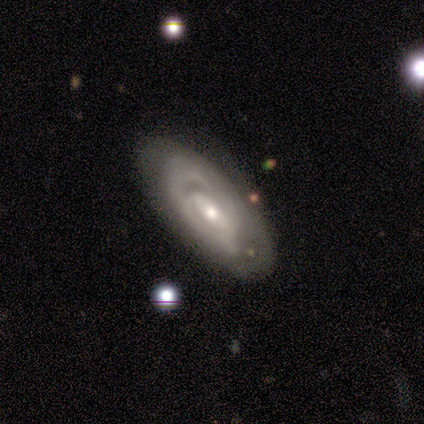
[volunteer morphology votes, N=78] smooth_or_featured: featured or disk (p=0.78) [alt: smooth p=0.15]
disk_edge_on: no (p=0.93) [alt: yes p=0.07]
bar: no (p=0.47) [alt: weak p=0.33]
has_spiral_arms: yes (p=0.82) [alt: no p=0.18]
spiral_winding: tight (p=0.68) [alt: medium p=0.21]
spiral_arm_count: can't tell (p=0.49) [alt: 2 p=0.32]
bulge_size: moderate (p=0.54) [alt: small p=0.44]
merging: none (p=0.42) [alt: minor disturbance p=0.07]